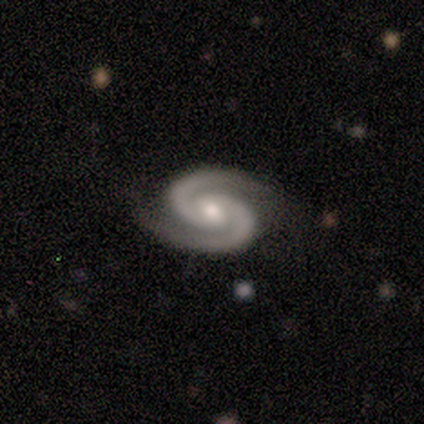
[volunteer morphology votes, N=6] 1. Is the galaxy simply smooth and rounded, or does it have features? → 83% featured or disk, 17% star or artifact, 0% smooth.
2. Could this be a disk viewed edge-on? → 100% no, 0% yes.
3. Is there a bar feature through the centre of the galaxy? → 60% no, 20% strong, 20% weak.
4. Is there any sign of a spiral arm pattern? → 100% yes, 0% no.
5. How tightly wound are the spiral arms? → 80% tight, 20% medium, 0% loose.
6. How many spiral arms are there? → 100% 2, 0% 1, 0% 3, 0% 4, 0% more than 4, 0% can't tell.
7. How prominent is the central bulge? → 100% moderate, 0% dominant, 0% large, 0% small, 0% none.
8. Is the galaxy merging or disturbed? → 80% none, 20% minor disturbance, 0% major disturbance, 0% merger.